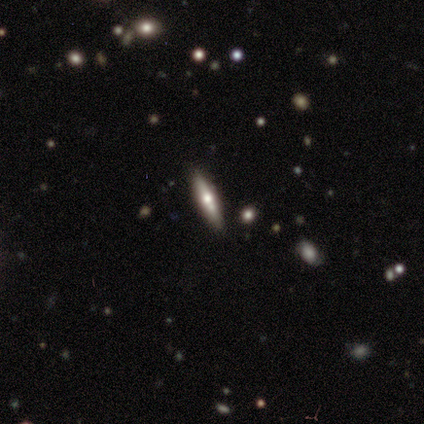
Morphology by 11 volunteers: Smooth or featured: featured or disk — 55% (smooth — 45%)
Edge-on disk: yes — 83% (no — 17%)
Edge-on bulge: rounded — 100%
Merging: none — 91% (minor disturbance — 9%)